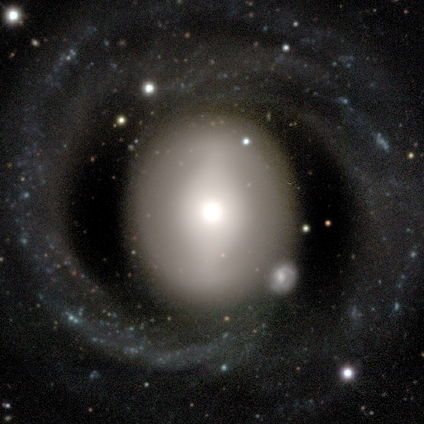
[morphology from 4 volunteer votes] This appears to be a featured or disk galaxy (75%) with a weak bar (67%), 1 (67%) tight (67%) spiral arms (100%) and a dominant central bulge (33%, tied with moderate and small). Merging: none (50%).